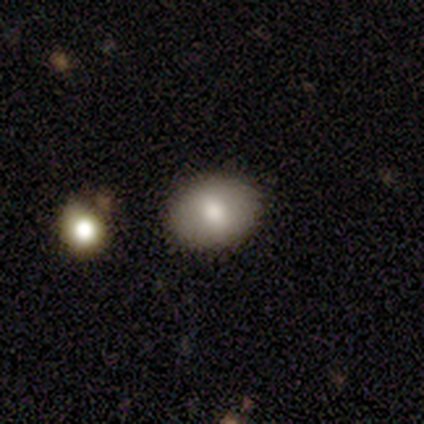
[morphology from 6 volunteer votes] smooth_or_featured: smooth (p=0.83) [alt: featured or disk p=0.17]
how_rounded: in between (p=0.80) [alt: round p=0.20]
merging: none (p=1.00)